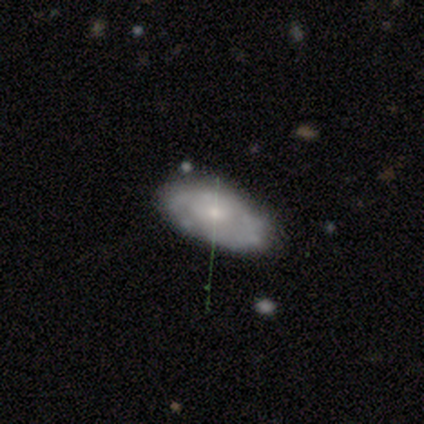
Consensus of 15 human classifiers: Smooth or featured? featured or disk (60%)
Edge-on disk? no (89%)
Bar? no (88%)
Spiral arms? yes (75%)
Spiral winding? tight (83%)
Spiral arm count? 2 (67%)
Bulge size? small (50%)
Merging? none (79%)